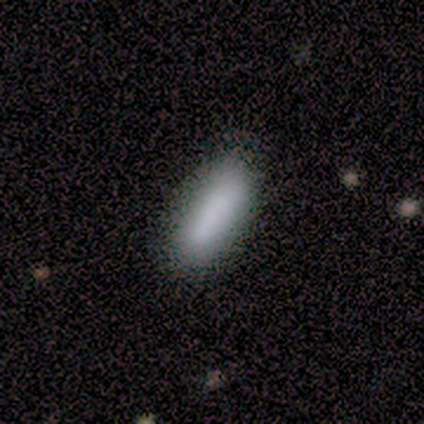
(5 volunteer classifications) This appears to be a smooth galaxy with no disk features (100%) that is in between round and cigar-shaped (60%). Merging: none (80%).